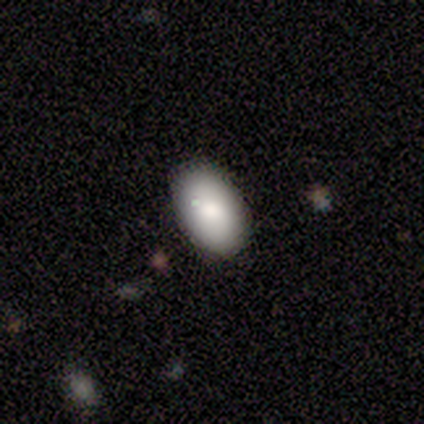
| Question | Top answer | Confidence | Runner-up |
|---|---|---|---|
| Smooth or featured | smooth | 73% | featured or disk (16%) |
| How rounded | in between | 96% | round (4%) |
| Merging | none | 88% | minor disturbance (6%) |